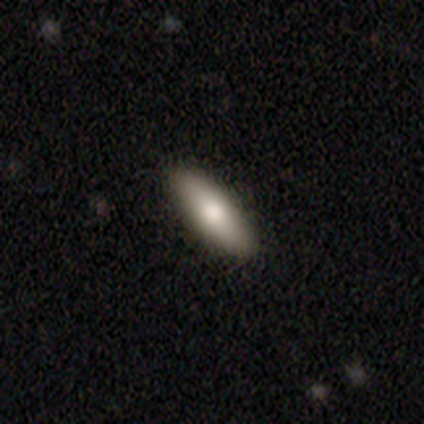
A smooth galaxy with no disk features (79%) that is in between round and cigar-shaped (52%).

Vote fractions:
- Smooth or featured? smooth: 79% / featured or disk: 13% / star or artifact: 8%
- How rounded? in between: 52% / cigar-shaped: 45% / round: 3%
- Merging? none: 89% / minor disturbance: 8% / major disturbance: 3% / merger: 0%